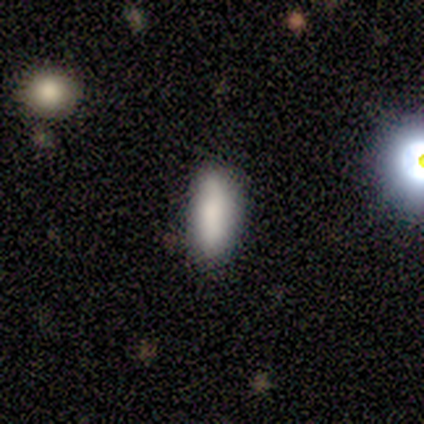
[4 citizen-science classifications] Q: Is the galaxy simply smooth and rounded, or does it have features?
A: smooth — 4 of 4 (100%).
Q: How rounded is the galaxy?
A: cigar-shaped — 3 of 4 (75%).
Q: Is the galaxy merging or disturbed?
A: none — 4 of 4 (100%).